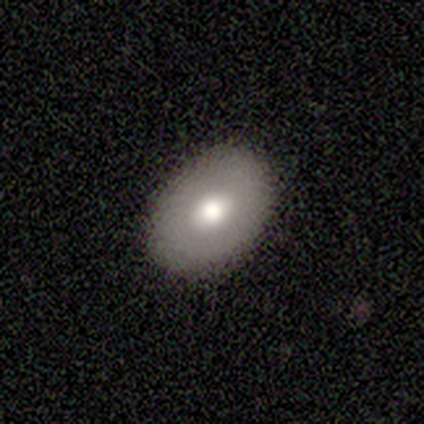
smooth 60%, featured or disk 40%, star or artifact 0%. Down the decision tree: how rounded — in between (100%); merging — none (100%).